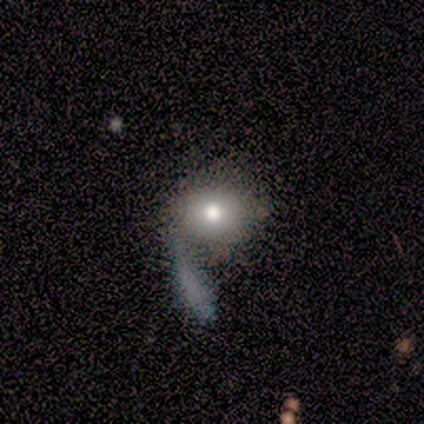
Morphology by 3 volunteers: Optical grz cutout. It shows a smooth galaxy with no disk features (67%) that is round (50%, tied with in between). Merging: none (100%).